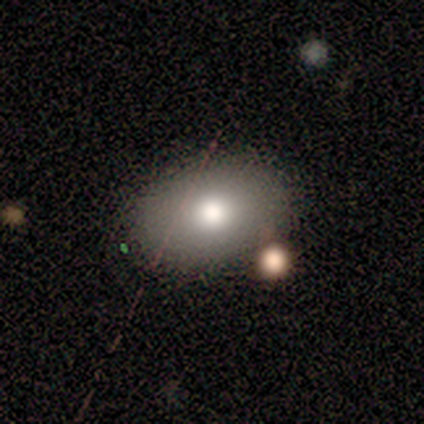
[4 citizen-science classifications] Smooth or featured?
  - smooth: 50% *
  - featured or disk: 25%
  - star or artifact: 25%
How rounded?
  - in between: 100% *
  - round: 0%
  - cigar-shaped: 0%
Merging?
  - none: 100% *
  - minor disturbance: 0%
  - major disturbance: 0%
  - merger: 0%